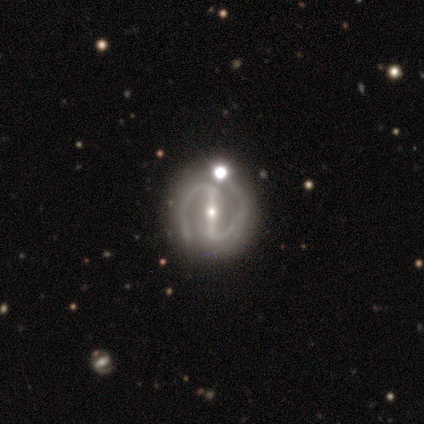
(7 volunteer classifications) A featured or disk galaxy (86%) with a strong bar (100%), 2 (100%) medium (83%) spiral arms (100%) and a small central bulge (83%). Merging: none (57%).